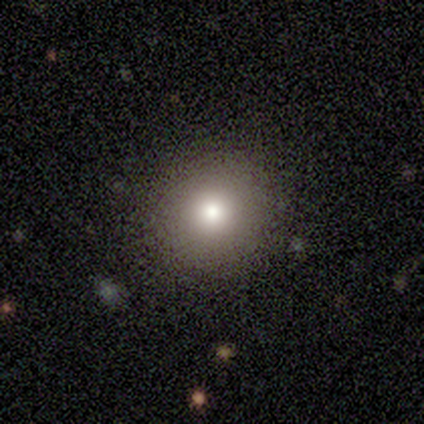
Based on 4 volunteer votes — Smooth or featured: smooth — 100%
How rounded: round — 100%
Merging: none — 75% (minor disturbance — 25%)